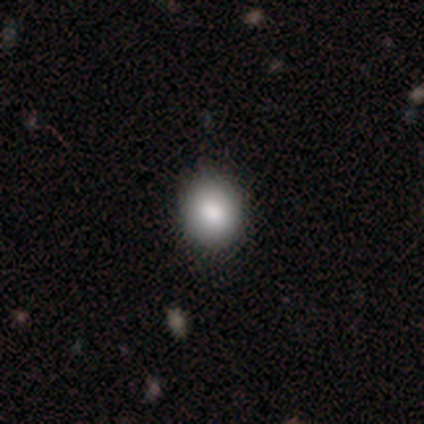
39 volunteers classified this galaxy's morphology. Smooth or featured? smooth (87%)
How rounded? round (74%)
Merging? none (74%)